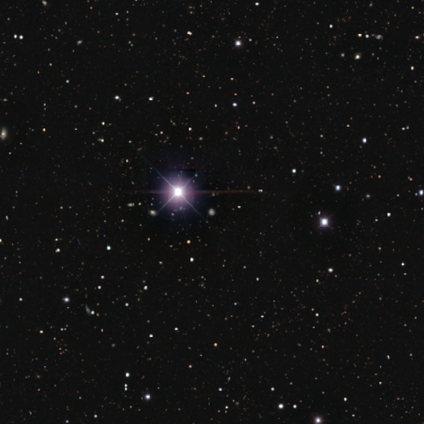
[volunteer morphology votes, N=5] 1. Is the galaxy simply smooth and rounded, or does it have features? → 80% star or artifact, 20% smooth, 0% featured or disk.